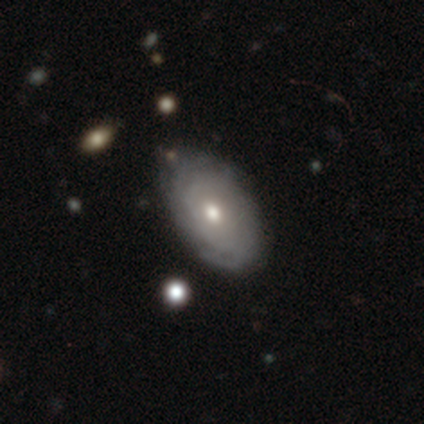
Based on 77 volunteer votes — This appears to be a featured or disk galaxy (62%) with no bar (98%), tight (87%) spiral arms (81%) and a moderate central bulge (74%). Merging: none (39%).